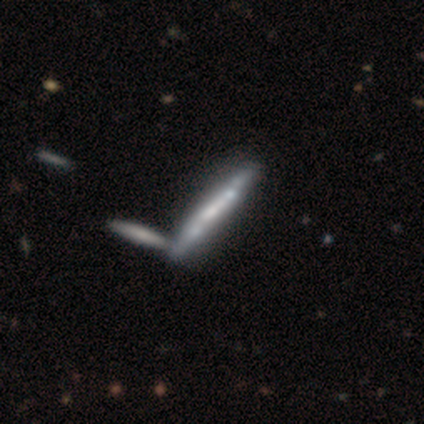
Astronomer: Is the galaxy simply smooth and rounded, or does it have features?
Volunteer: featured or disk — 72%.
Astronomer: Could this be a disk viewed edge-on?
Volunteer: yes — 86%.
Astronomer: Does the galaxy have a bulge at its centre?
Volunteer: none — 62%.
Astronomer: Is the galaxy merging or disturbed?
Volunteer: merger — 34% (runner-up: none, 21%).